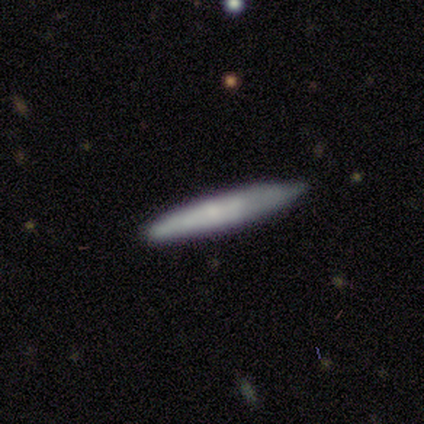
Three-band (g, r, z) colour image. It shows a smooth galaxy with no disk features (60%) that is cigar-shaped (100%). Merging: none (50%, tied with minor disturbance).